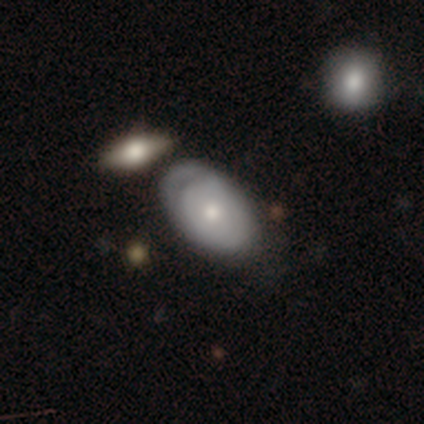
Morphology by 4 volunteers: Smooth or featured?
  - featured or disk: 75% *
  - smooth: 25%
  - star or artifact: 0%
Edge-on disk?
  - no: 67% *
  - yes: 33%
Bar?
  - weak: 50% * (tied)
  - no: 50% * (tied)
  - strong: 0%
Spiral arms?
  - yes: 100% *
  - no: 0%
Spiral winding?
  - tight: 50% * (tied)
  - loose: 50% * (tied)
  - medium: 0%
Spiral arm count?
  - can't tell: 100% *
  - 1: 0%
  - 2: 0%
  - 3: 0%
  - 4: 0%
  - more than 4: 0%
Bulge size?
  - moderate: 50% * (tied)
  - small: 50% * (tied)
  - dominant: 0%
  - large: 0%
  - none: 0%
Merging?
  - none: 75% *
  - minor disturbance: 25%
  - major disturbance: 0%
  - merger: 0%